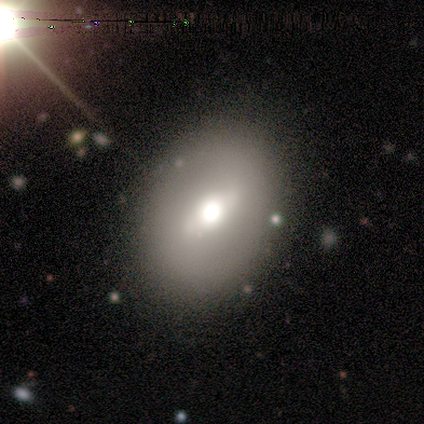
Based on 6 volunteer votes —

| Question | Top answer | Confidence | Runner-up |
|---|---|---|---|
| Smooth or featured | smooth | 83% | featured or disk (17%) |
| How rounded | in between | 60% | round (40%) |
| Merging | none | 83% | minor disturbance (17%) |